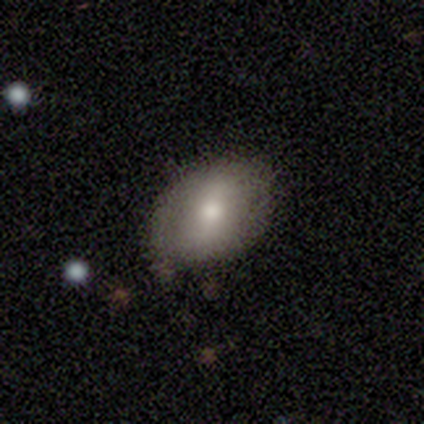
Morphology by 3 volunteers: smooth_or_featured: featured or disk (p=1.00)
disk_edge_on: no (p=1.00)
bar: strong (p=0.33) [tied with: weak p=0.33, no p=0.33]
has_spiral_arms: no (p=0.67) [alt: yes p=0.33]
bulge_size: large (p=0.33) [tied with: moderate p=0.33, small p=0.33]
merging: none (p=1.00)